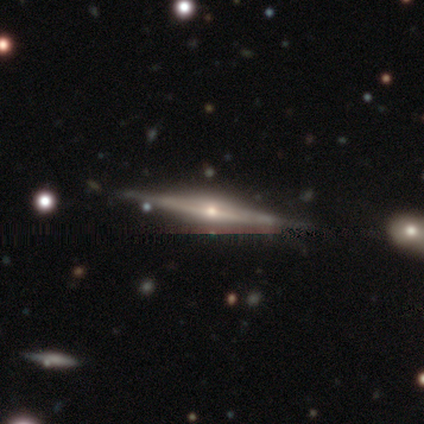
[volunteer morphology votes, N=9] This is likely a featured or disk galaxy (78%). It is clearly viewed edge-on (86%). Edge-on bulge: clearly rounded (100%). Merging: likely none (78%).